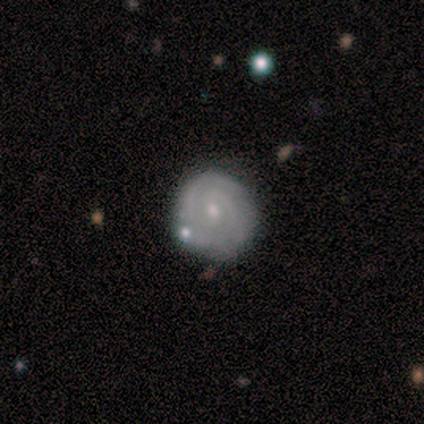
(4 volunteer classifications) Volunteers were most divided on "smooth or featured" (2-way tie): smooth: 50%, featured or disk: 50%, star or artifact: 0%. More confident: how rounded — round (100%); merging — none (100%).